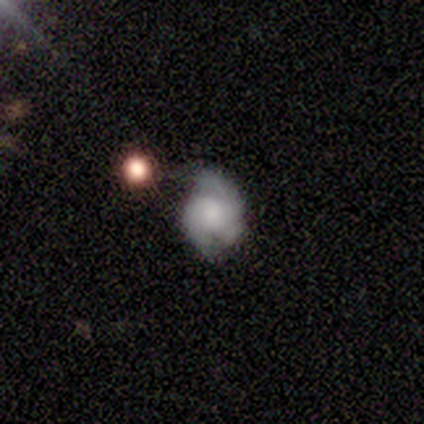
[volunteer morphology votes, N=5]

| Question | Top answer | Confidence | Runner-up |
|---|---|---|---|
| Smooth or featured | featured or disk | 60% | smooth (40%) |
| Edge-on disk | no | 100% | — |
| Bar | weak | 67% | no (33%) |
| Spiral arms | yes | 100% | — |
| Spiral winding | medium | 67% | tight (33%) |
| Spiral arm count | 2 | 100% | — |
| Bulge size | none | 67% | moderate (33%) |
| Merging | none | 40% | tied: major disturbance (40%) |